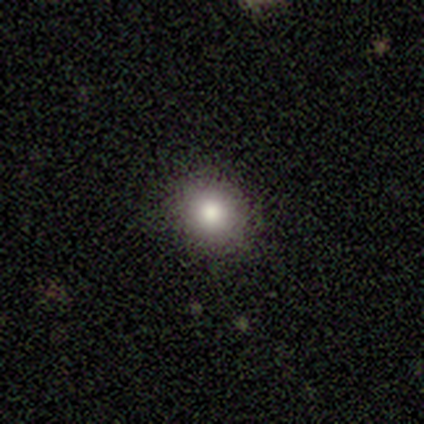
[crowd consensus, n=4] Smooth or featured? 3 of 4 (75%) said smooth. How rounded? 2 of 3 (67%) said round. Merging? 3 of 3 (100%) said none.